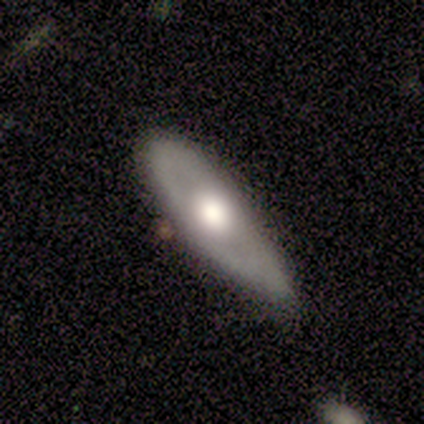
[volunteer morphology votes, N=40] This is possibly a smooth galaxy (52%). How rounded: likely in between (71%). Merging: possibly none (49%).